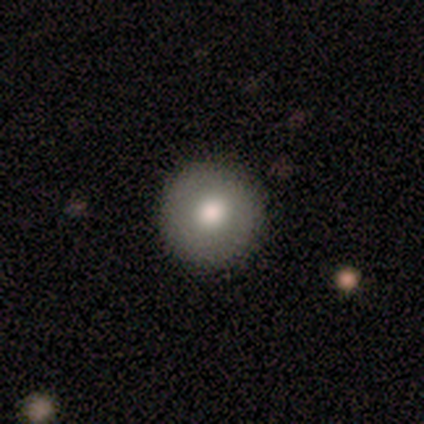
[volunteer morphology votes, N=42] Overall: smooth (64%; featured or disk 26%). How rounded: round (96%). Merging: none (97%).